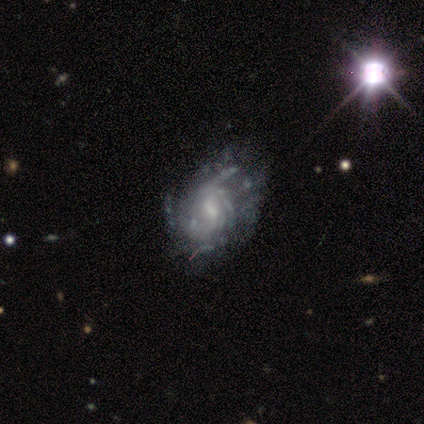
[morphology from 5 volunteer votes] This is clearly a featured or disk galaxy (100%). It is clearly not viewed edge-on (100%). Bar: clearly weak (80%). Spiral arm pattern: clearly yes (100%). Spiral arm count: marginally 1 (40%, tied with can't tell). Spiral winding: marginally tight (40%, tied with loose). Central bulge: likely small (60%). Merging: likely major disturbance (60%).